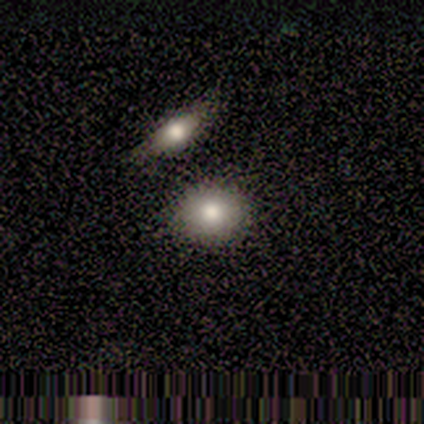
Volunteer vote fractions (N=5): Morphology: type=smooth (80%); roundness=round (75%); merging=none (75%).